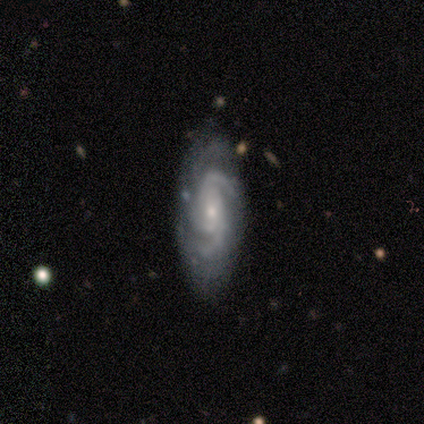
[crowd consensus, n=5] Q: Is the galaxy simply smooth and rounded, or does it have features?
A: featured or disk — 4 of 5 (80%).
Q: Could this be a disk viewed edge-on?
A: no — 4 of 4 (100%).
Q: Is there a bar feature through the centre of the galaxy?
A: strong — 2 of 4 (50%).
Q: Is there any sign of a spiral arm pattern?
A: yes — 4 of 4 (100%).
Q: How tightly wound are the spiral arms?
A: medium — 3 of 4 (75%).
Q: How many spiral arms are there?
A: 2 — 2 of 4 (50%).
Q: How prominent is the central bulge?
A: small — 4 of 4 (100%).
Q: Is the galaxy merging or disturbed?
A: none — 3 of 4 (75%).